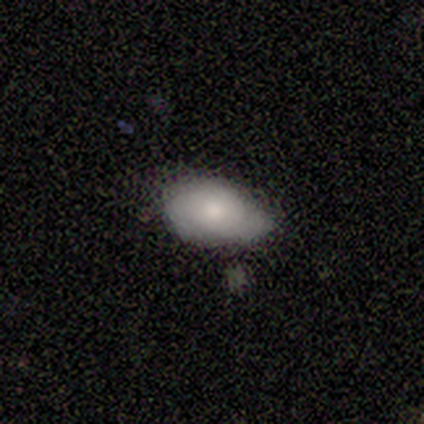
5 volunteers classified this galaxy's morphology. A smooth galaxy with no disk features (60%) that is in between round and cigar-shaped (67%).

Vote fractions:
- Smooth or featured? smooth: 60% / featured or disk: 40% / star or artifact: 0%
- How rounded? in between: 67% / round: 33% / cigar-shaped: 0%
- Merging? minor disturbance: 80% / none: 20% / major disturbance: 0% / merger: 0%